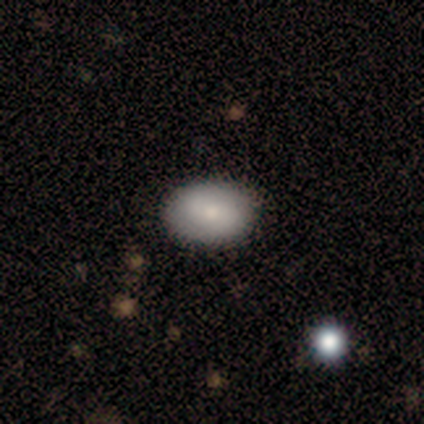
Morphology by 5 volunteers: Overall: smooth (80%). How rounded: in between (75%). Merging: none (80%).